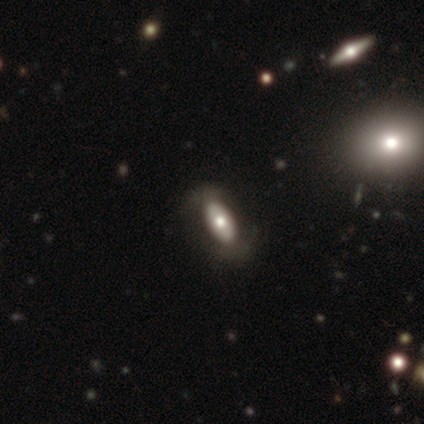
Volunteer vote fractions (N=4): Overall: featured or disk (100%). Edge-on disk: no (100%). Bar: no (75%). Spiral arms: no (100%). Bulge size: moderate (50%; small 25%). Merging: none (50%, tied with major disturbance).